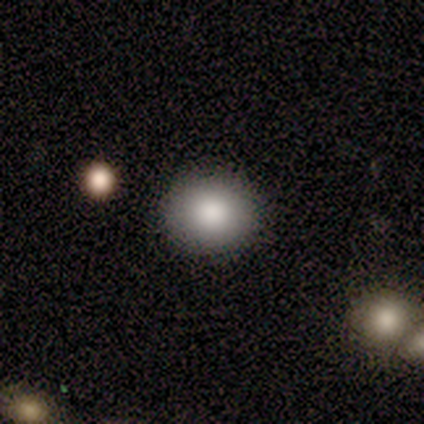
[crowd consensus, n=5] smooth-or-featured: smooth: 80% | featured or disk: 20% | star or artifact: 0%
  how-rounded: round: 100% | in between: 0% | cigar-shaped: 0%
  merging: none: 100% | minor disturbance: 0% | major disturbance: 0% | merger: 0%